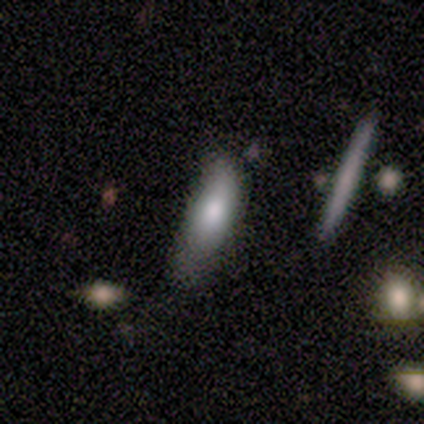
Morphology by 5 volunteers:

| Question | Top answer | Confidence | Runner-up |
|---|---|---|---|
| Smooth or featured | smooth | 80% | featured or disk (20%) |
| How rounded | cigar-shaped | 100% | — |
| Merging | none | 80% | minor disturbance (20%) |